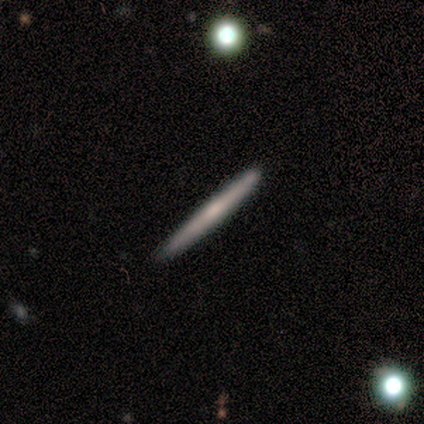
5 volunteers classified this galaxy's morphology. This appears to be a smooth galaxy with no disk features (60%) that is cigar-shaped (100%). Merging: none (60%).